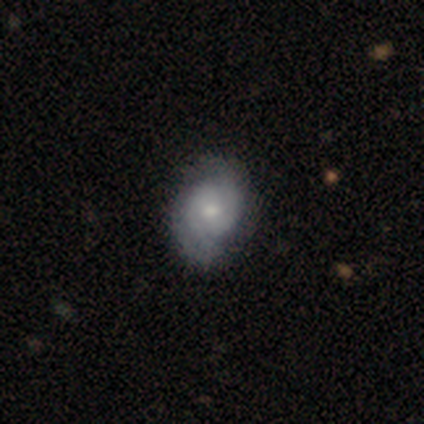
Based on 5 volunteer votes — Volunteers were most divided on "smooth or featured": featured or disk: 60%, star or artifact: 40%, smooth: 0%. More confident: edge-on disk — no (100%); spiral arms — yes (100%); spiral arm count — 2 (100%); bar — no (67%); spiral winding — tight (67%); bulge size — moderate (67%); merging — none (67%).